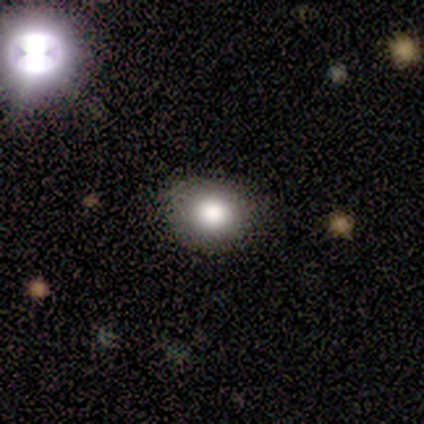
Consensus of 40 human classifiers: A smooth galaxy with no disk features (75%) that is round (70%). Merging: none (88%).